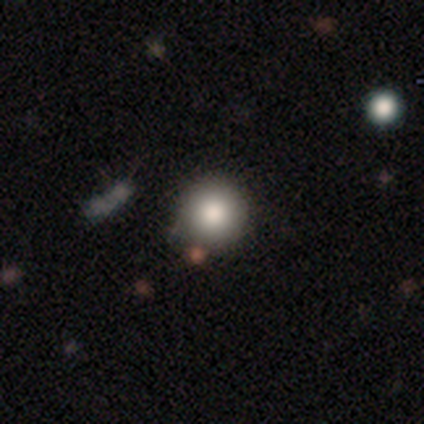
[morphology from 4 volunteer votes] Smooth or featured?
  - smooth: 50% * (tied)
  - star or artifact: 50% * (tied)
  - featured or disk: 0%
How rounded?
  - round: 100% *
  - in between: 0%
  - cigar-shaped: 0%
Merging?
  - none: 50% * (tied)
  - minor disturbance: 50% * (tied)
  - major disturbance: 0%
  - merger: 0%